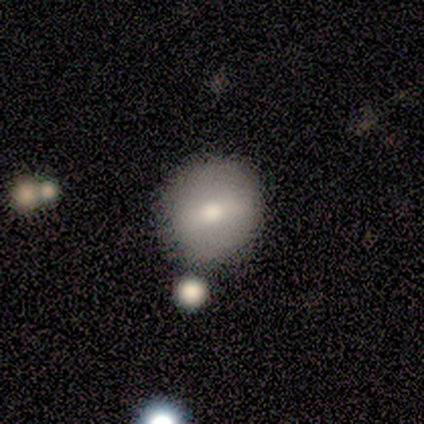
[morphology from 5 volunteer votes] featured or disk 60%, smooth 40%, star or artifact 0%. Down the decision tree: edge-on disk — no (100%); bar — weak (67%); spiral arms — no (100%); bulge size — moderate (67%); merging — none (80%).